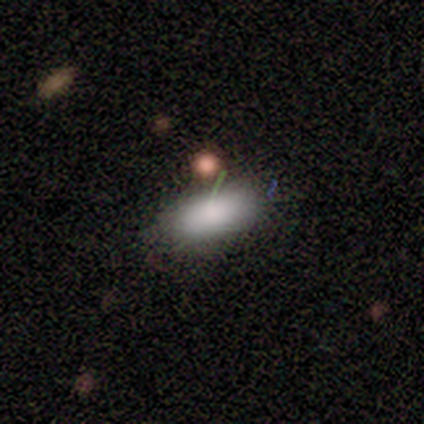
This appears to be a smooth galaxy with no disk features (80%) that is in between round and cigar-shaped (100%). Merging: none (80%).